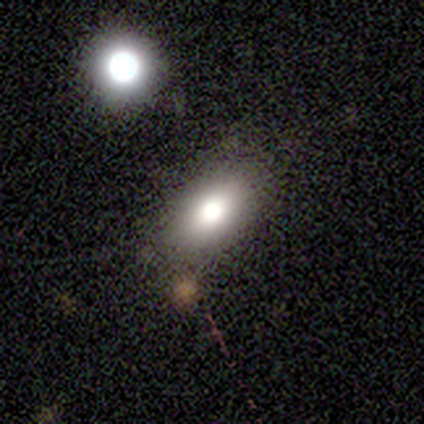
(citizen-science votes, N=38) Morphology: type=smooth (63%); roundness=in between (96%); merging=none (61%).